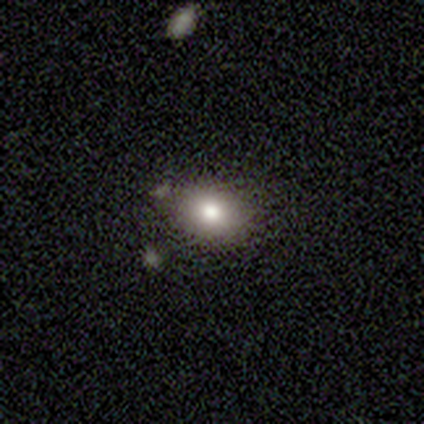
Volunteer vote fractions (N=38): smooth 74%, featured or disk 18%, star or artifact 8%. Down the decision tree: how rounded — round (50%, tied with in between); merging — none (71%).